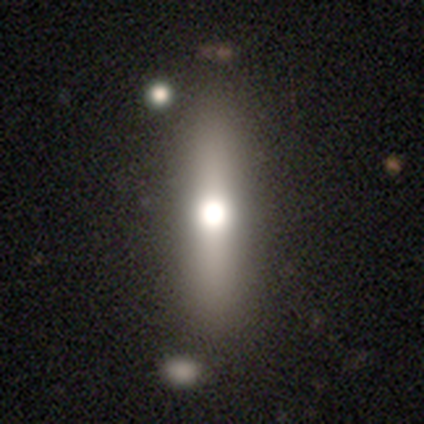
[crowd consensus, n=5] Smooth or featured: featured or disk — 60% (smooth — 40%)
Edge-on disk: yes — 67% (no — 33%)
Edge-on bulge: rounded — 100%
Merging: none — 100%